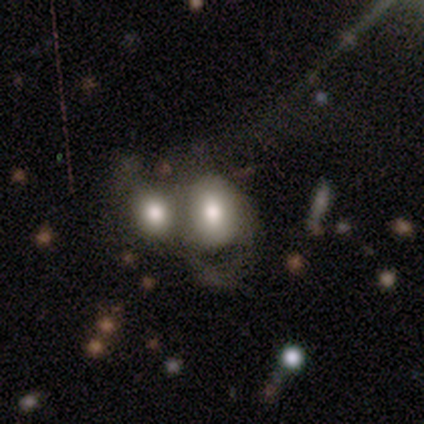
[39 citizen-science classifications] A smooth galaxy with no disk features (72%) that is in between round and cigar-shaped (64%). Merging: merger (53%).